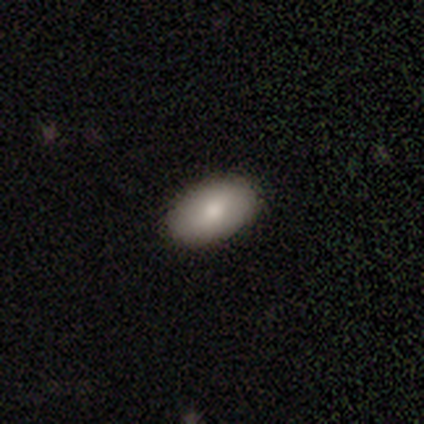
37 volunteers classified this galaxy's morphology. Smooth or featured: smooth — 78% (featured or disk — 22%)
How rounded: in between — 97% (round — 3%)
Merging: none — 89% (minor disturbance — 8%)